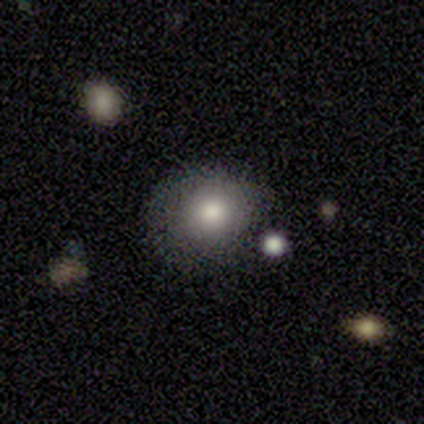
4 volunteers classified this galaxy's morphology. smooth-or-featured: smooth: 50% (tied) | star or artifact: 50% (tied) | featured or disk: 0%
  how-rounded: round: 50% (tied) | in between: 50% (tied) | cigar-shaped: 0%
  merging: none: 50% (tied) | minor disturbance: 50% (tied) | major disturbance: 0% | merger: 0%